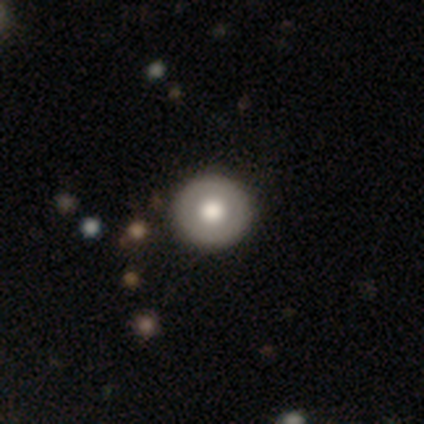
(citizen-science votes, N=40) Smooth or featured?
  - smooth: 62% *
  - featured or disk: 38%
  - star or artifact: 0%
How rounded?
  - round: 96% *
  - in between: 4%
  - cigar-shaped: 0%
Merging?
  - none: 52% *
  - major disturbance: 2%
  - minor disturbance: 0%
  - merger: 0%